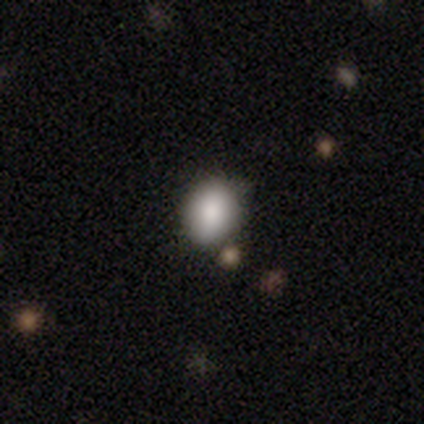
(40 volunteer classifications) A smooth galaxy with no disk features (82%) that is round (55%).

Vote fractions:
- Smooth or featured? smooth: 82% / featured or disk: 10% / star or artifact: 8%
- How rounded? round: 55% / in between: 45% / cigar-shaped: 0%
- Merging? none: 68% / minor disturbance: 30% / merger: 3% / major disturbance: 0%